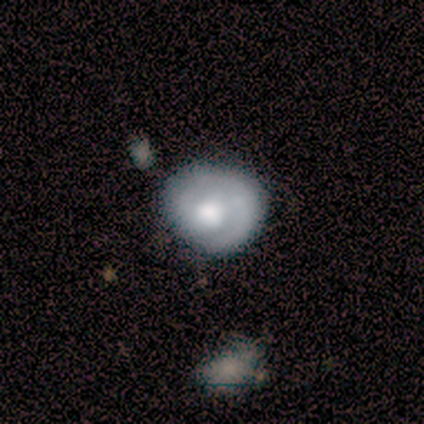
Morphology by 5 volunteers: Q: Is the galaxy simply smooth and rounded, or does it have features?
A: featured or disk — 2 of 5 (40%, tied with star or artifact).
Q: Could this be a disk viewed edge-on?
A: no — 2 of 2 (100%).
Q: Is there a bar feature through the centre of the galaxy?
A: weak — 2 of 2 (100%).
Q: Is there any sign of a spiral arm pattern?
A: yes — 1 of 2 (50%, tied with no).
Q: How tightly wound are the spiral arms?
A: medium — 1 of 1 (100%).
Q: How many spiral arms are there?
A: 2 — 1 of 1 (100%).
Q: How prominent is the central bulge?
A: large — 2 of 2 (100%).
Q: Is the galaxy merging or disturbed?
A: none — 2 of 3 (67%).